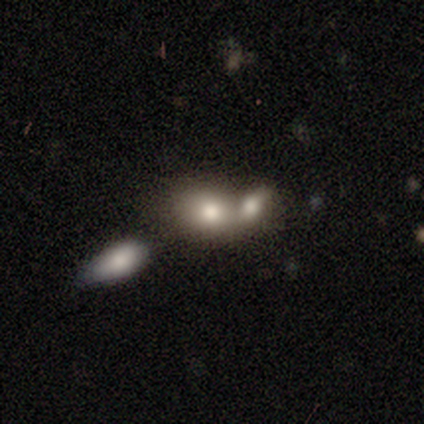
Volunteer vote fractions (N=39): This appears to be a smooth galaxy with no disk features (82%) that is in between round and cigar-shaped (69%). Merging: merger (68%).